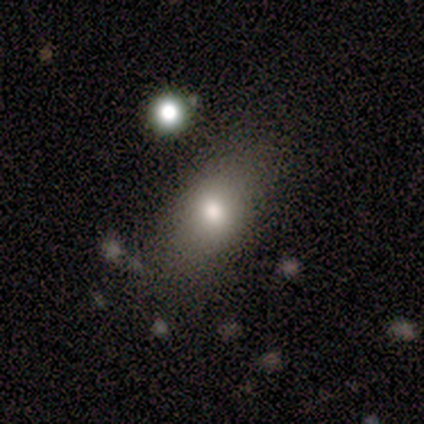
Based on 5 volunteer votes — Smooth or featured? 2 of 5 (40%, tied with featured or disk) said smooth. How rounded? 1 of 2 (50%, tied with cigar-shaped) said in between. Merging? 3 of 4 (75%) said none.